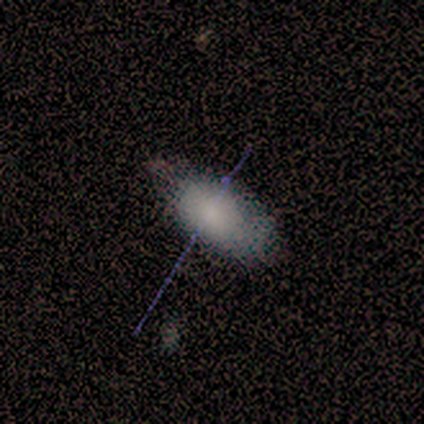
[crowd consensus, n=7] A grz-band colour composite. It shows a smooth galaxy with no disk features (71%) that is in between round and cigar-shaped (100%). Merging: none (71%).